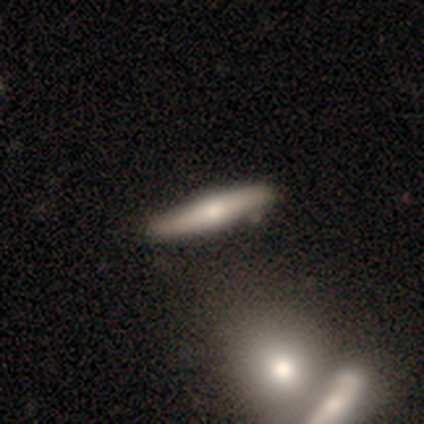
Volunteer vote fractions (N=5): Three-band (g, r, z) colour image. It shows a featured or disk galaxy (60%) viewed edge-on (100%) with a rounded central bulge (100%). Merging: none (100%).